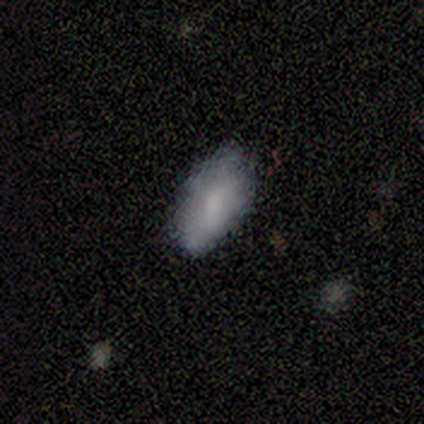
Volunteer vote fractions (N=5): Volunteers were most divided on "merging": none: 60%, minor disturbance: 20%, major disturbance: 20%, merger: 0%. More confident: how rounded — in between (100%); smooth or featured — smooth (80%).